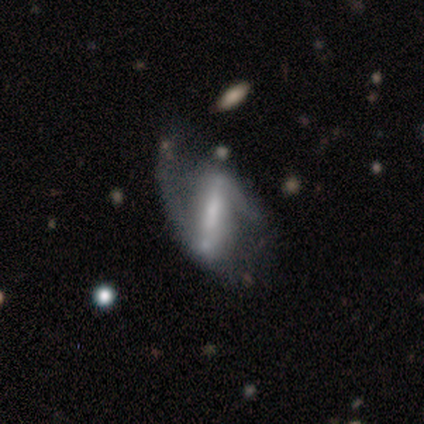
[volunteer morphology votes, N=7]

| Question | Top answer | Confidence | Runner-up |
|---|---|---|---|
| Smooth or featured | featured or disk | 100% | — |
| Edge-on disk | no | 86% | yes (14%) |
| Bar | strong | 83% | weak (17%) |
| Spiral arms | yes | 83% | no (17%) |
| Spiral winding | loose | 80% | medium (20%) |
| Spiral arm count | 2 | 100% | — |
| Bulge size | small | 83% | moderate (17%) |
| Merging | none | 43% | minor disturbance (29%) |